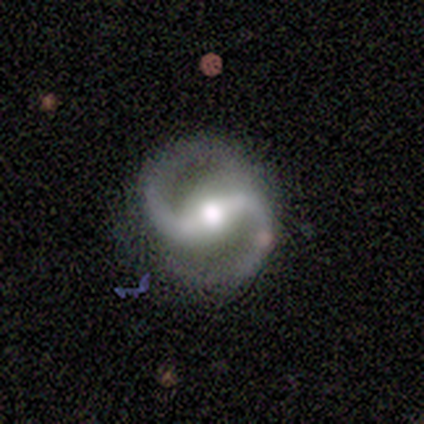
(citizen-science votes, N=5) Q: Smooth or featured?
A: featured or disk (80%); runner-up: smooth (20%)
Q: Edge-on disk?
A: no (100%)
Q: Bar?
A: no (50%); runner-up: strong (25%)
Q: Spiral arms?
A: yes (100%)
Q: Spiral winding?
A: medium (50%); tied with: loose (50%)
Q: Spiral arm count?
A: 2 (100%)
Q: Bulge size?
A: moderate (75%); runner-up: large (25%)
Q: Merging?
A: none (100%)